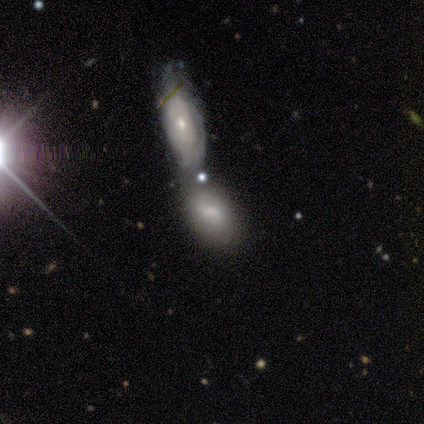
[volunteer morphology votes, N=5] Smooth or featured: smooth — 60% (featured or disk — 40%)
How rounded: in between — 100%
Merging: merger — 80% (none — 20%)